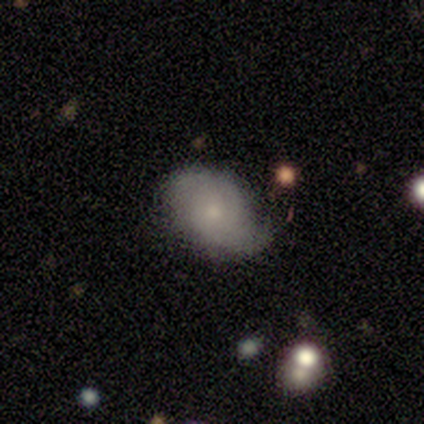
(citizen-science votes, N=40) Smooth or featured?
  - smooth: 52% *
  - featured or disk: 45%
  - star or artifact: 2%
How rounded?
  - in between: 100% *
  - round: 0%
  - cigar-shaped: 0%
Merging?
  - minor disturbance: 44% *
  - none: 33%
  - merger: 5%
  - major disturbance: 3%